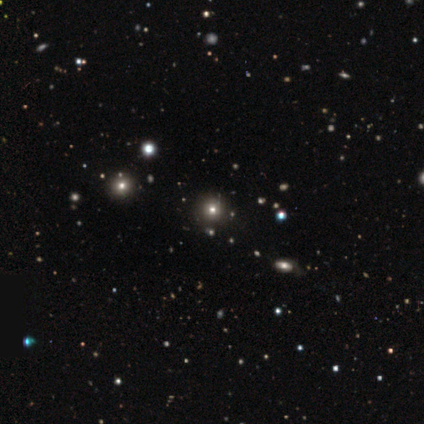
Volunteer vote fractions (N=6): A star or artifact, not a galaxy (100%).